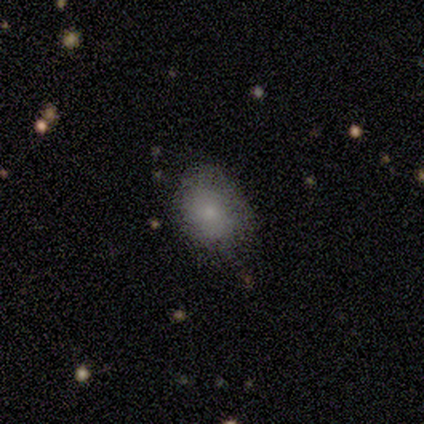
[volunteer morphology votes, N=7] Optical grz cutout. It shows a smooth galaxy with no disk features (71%) that is in between round and cigar-shaped (60%). Merging: minor disturbance (60%).